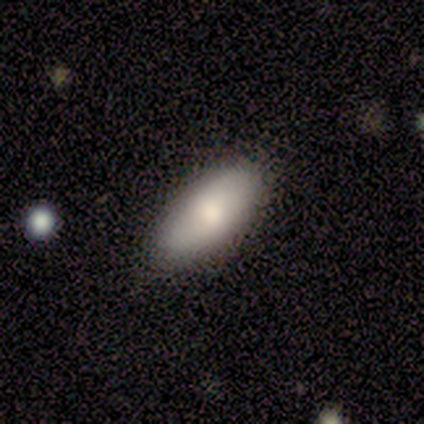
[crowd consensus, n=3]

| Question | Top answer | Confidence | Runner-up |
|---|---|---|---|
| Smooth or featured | smooth | 100% | — |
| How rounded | in between | 100% | — |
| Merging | none | 67% | major disturbance (33%) |